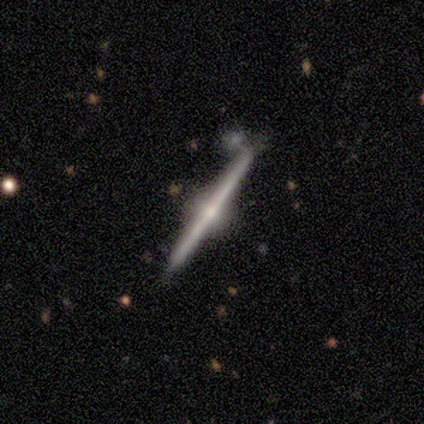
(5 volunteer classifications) featured or disk 100%, smooth 0%, star or artifact 0%. Down the decision tree: edge-on disk — yes (100%); edge-on bulge — rounded (80%); merging — none (100%).